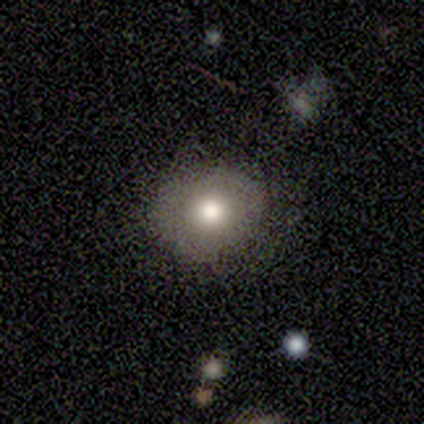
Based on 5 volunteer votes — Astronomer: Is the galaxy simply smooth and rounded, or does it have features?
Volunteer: smooth — 80%.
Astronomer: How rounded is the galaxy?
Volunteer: round — 75%.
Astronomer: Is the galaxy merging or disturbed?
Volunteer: none — 80%.